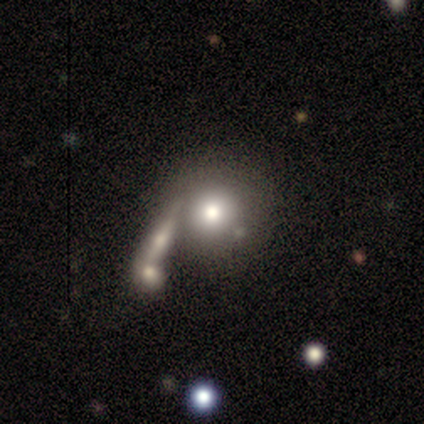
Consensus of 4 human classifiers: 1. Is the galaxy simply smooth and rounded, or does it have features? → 50% smooth (tied), 50% featured or disk (tied), 0% star or artifact.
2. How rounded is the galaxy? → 100% round, 0% in between, 0% cigar-shaped.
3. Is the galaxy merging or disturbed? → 50% merger, 25% none, 25% major disturbance, 0% minor disturbance.